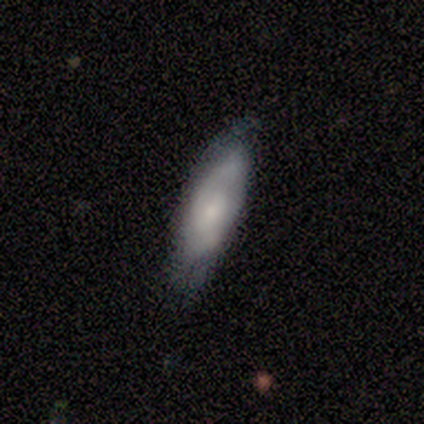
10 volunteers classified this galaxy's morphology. smooth-or-featured: featured or disk: 60% | smooth: 40% | star or artifact: 0%
  disk-edge-on: no: 67% | yes: 33%
    bar: no: 75% | weak: 25% | strong: 0%
    has-spiral-arms: yes: 100% | no: 0%
      spiral-winding: medium: 50% (tied) | loose: 50% (tied) | tight: 0%
      spiral-arm-count: can't tell: 75% | 2: 25% | 1: 0% | 3: 0% | 4: 0% | more than 4: 0%
    bulge-size: small: 100% | dominant: 0% | large: 0% | moderate: 0% | none: 0%
  merging: none: 60% | minor disturbance: 40% | major disturbance: 0% | merger: 0%